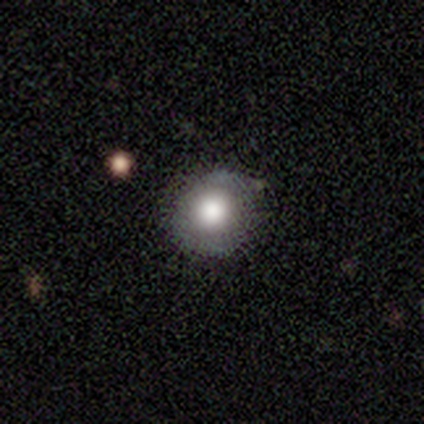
smooth 79%, featured or disk 13%, star or artifact 8%. Down the decision tree: how rounded — round (90%); merging — none (67%).